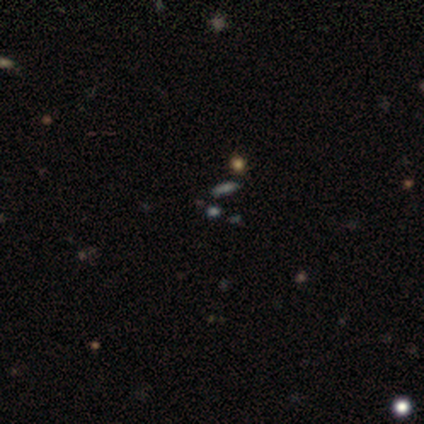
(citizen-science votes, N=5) Volunteers were most divided on "smooth or featured": smooth: 60%, star or artifact: 40%, featured or disk: 0%. More confident: how rounded — in between (67%); merging — none (67%).